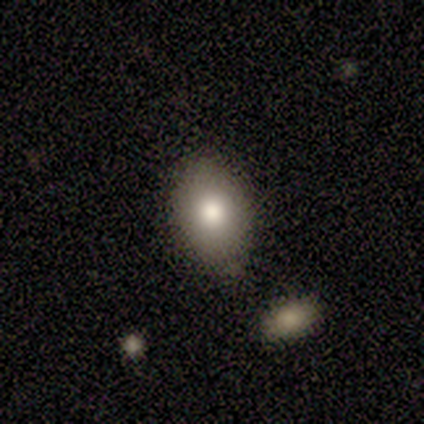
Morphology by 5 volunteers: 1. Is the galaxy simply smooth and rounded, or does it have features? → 80% smooth, 20% featured or disk, 0% star or artifact.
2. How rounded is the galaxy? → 75% in between, 25% round, 0% cigar-shaped.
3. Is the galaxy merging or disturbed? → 40% none (tied), 40% minor disturbance (tied), 20% merger, 0% major disturbance.